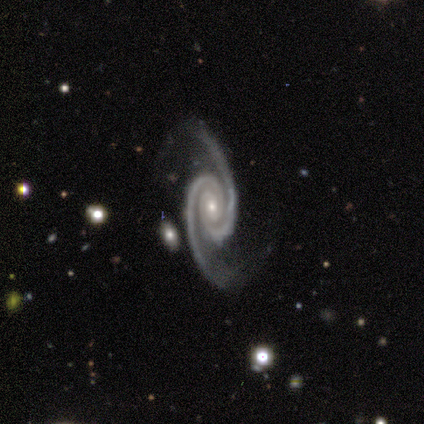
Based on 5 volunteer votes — Volunteers were most divided on "bar": no: 75%, weak: 25%, strong: 0%. More confident: edge-on disk — no (100%); spiral arms — yes (100%); spiral arm count — 2 (100%); bulge size — small (100%); smooth or featured — featured or disk (80%); merging — none (80%); spiral winding — tight (75%).